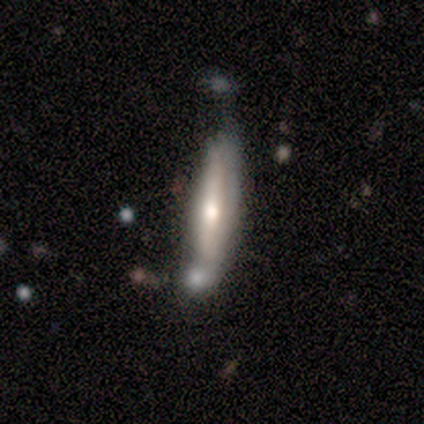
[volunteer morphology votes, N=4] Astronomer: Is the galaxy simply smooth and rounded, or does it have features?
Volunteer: featured or disk — 75%.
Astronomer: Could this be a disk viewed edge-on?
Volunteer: yes — 100%.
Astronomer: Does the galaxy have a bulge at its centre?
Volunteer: rounded — 67%.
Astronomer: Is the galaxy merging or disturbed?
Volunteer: minor disturbance — 50%.